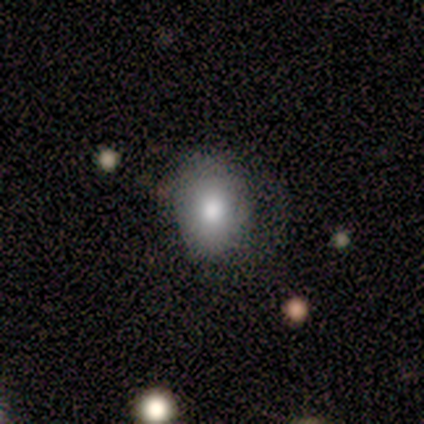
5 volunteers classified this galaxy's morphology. This appears to be a smooth galaxy with no disk features (80%) that is round (50%, tied with in between). Merging: none (75%).